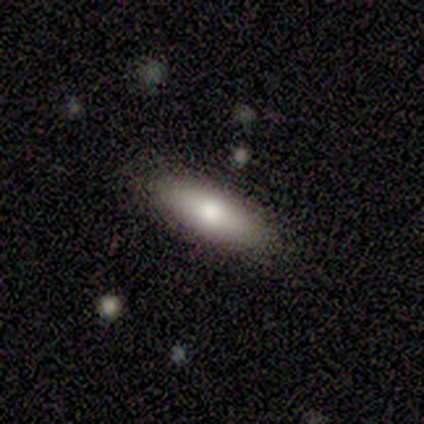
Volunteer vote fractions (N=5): Morphology: type=featured or disk (80%); edge-on=no (75%); bar=no (100%); spiral arms=no (100%); bulge=moderate (67%); merging=none (100%).